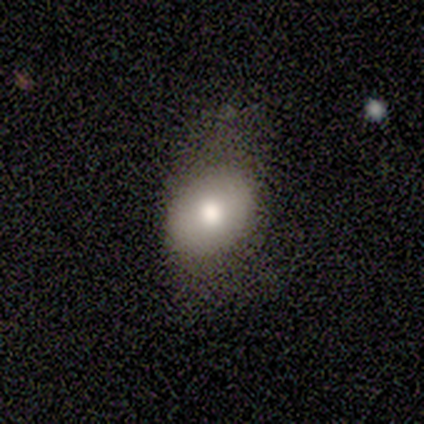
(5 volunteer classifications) Smooth or featured?
  - smooth: 80% *
  - featured or disk: 20%
  - star or artifact: 0%
How rounded?
  - in between: 75% *
  - round: 25%
  - cigar-shaped: 0%
Merging?
  - none: 40% * (tied)
  - minor disturbance: 40% * (tied)
  - major disturbance: 20%
  - merger: 0%